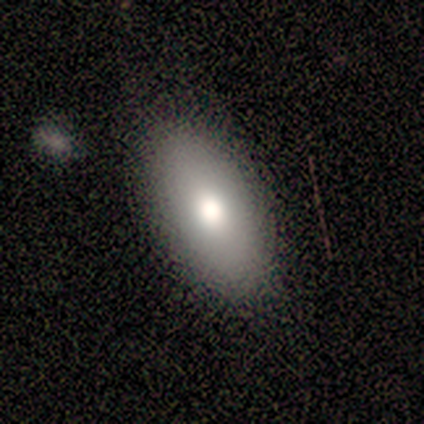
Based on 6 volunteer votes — Volunteers were most divided on "merging": none: 83%, minor disturbance: 17%, major disturbance: 0%, merger: 0%. More confident: smooth or featured — smooth (100%); how rounded — in between (100%).